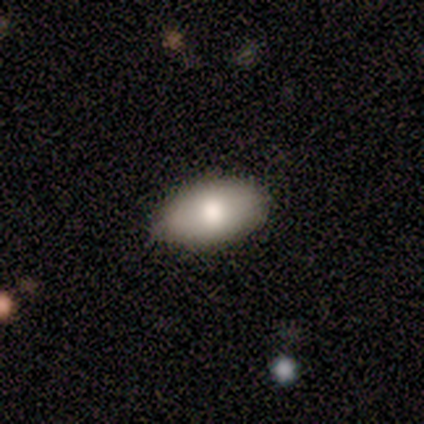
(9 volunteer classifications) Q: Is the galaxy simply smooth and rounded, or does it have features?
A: smooth — 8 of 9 (89%).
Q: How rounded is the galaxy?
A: in between — 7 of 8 (88%).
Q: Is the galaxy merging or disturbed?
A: none — 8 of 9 (89%).